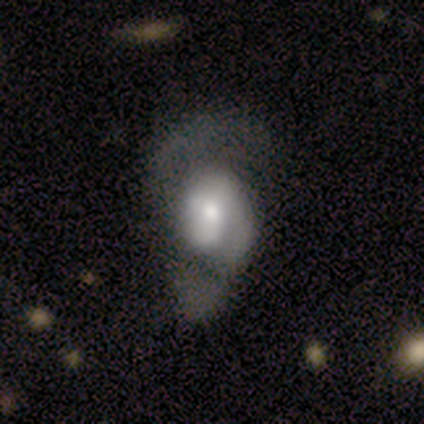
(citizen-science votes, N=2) This is possibly a featured or disk galaxy (50%, tied with star or artifact). It is clearly not viewed edge-on (100%). Bar: clearly no (100%). Spiral arm pattern: clearly yes (100%). Spiral arm count: clearly 2 (100%). Spiral winding: clearly medium (100%). Central bulge: clearly moderate (100%). Merging: clearly none (100%).